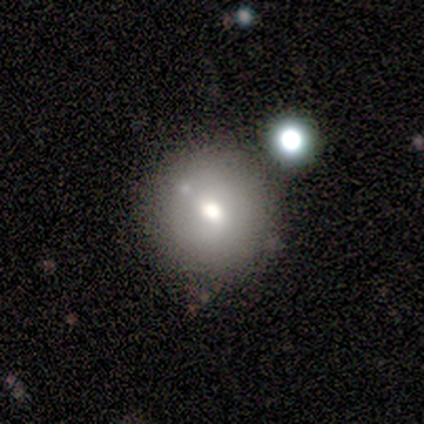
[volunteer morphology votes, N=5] This appears to be a smooth galaxy with no disk features (80%) that is round (75%). Merging: none (80%).